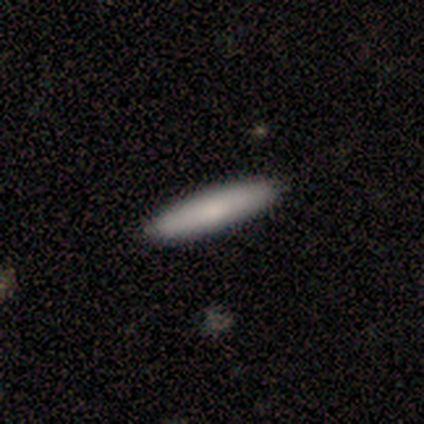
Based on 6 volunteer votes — smooth 83%, featured or disk 17%, star or artifact 0%. Down the decision tree: how rounded — in between (60%); merging — none (100%).